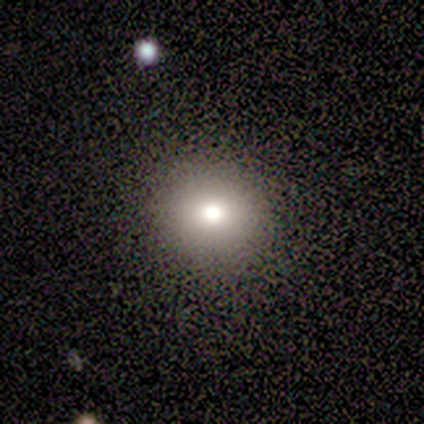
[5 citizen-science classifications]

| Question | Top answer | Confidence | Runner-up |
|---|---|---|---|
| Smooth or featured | smooth | 80% | star or artifact (20%) |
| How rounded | round | 100% | — |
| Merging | none | 100% | — |